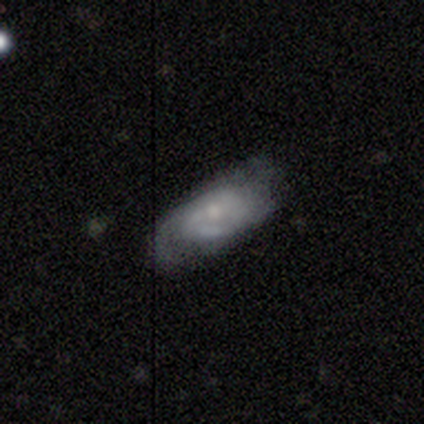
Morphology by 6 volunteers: Q: Smooth or featured?
A: featured or disk (83%); runner-up: smooth (17%)
Q: Edge-on disk?
A: no (80%); runner-up: yes (20%)
Q: Bar?
A: weak (50%); runner-up: strong (25%)
Q: Spiral arms?
A: yes (100%)
Q: Spiral winding?
A: tight (50%); tied with: medium (50%)
Q: Spiral arm count?
A: 2 (100%)
Q: Bulge size?
A: moderate (50%); tied with: small (50%)
Q: Merging?
A: none (50%); runner-up: minor disturbance (33%)